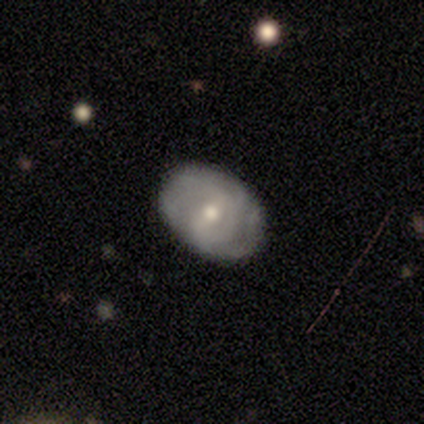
A featured or disk galaxy (77%) with a weak bar (50%), tight (52%) spiral arms (82%) and a moderate central bulge (57%).

Vote fractions:
- Smooth or featured? featured or disk: 77% / smooth: 21% / star or artifact: 3%
- Edge-on disk? no: 93% / yes: 7%
- Bar? weak: 50% / no: 36% / strong: 14%
- Spiral arms? yes: 82% / no: 18%
- Spiral winding? tight: 52% / medium: 26% / loose: 22%
- Spiral arm count? can't tell: 48% / 2: 35% / 3: 17% / 1: 0% / 4: 0% / more than 4: 0%
- Bulge size? moderate: 57% / small: 43% / dominant: 0% / large: 0% / none: 0%
- Merging? none: 87% / minor disturbance: 11% / major disturbance: 3% / merger: 0%